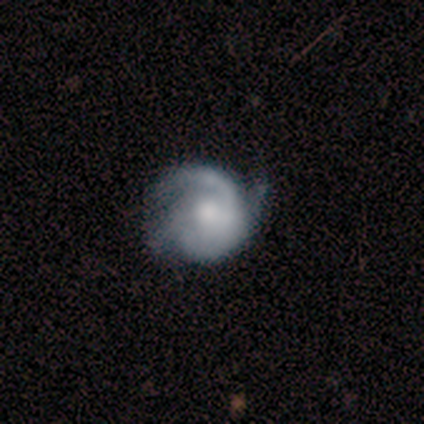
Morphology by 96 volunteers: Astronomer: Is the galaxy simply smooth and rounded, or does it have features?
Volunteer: featured or disk — 77%.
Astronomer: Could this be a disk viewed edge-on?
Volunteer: no — 96%.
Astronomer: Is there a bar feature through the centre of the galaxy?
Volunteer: no — 79%.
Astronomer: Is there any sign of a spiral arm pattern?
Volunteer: yes — 93%.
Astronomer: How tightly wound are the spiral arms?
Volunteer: tight — 53% (runner-up: medium, 38%).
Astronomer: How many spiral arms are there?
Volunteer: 3 — 35% (runner-up: 1, 24%).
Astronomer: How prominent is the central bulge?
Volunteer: moderate — 52%.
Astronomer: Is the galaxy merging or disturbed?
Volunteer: none — 54% (runner-up: minor disturbance, 33%).